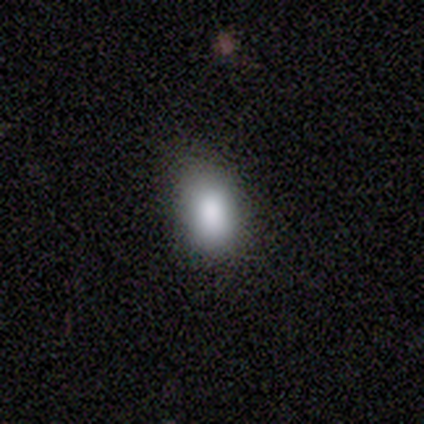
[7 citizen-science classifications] smooth_or_featured: smooth (p=0.71) [alt: featured or disk p=0.14]
how_rounded: in between (p=0.80) [alt: round p=0.20]
merging: none (p=0.83) [alt: major disturbance p=0.17]